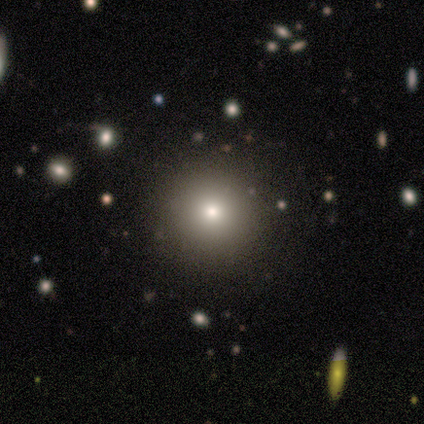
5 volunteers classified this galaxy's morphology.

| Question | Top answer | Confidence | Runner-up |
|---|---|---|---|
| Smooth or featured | smooth | 80% | star or artifact (20%) |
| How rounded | round | 100% | — |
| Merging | none | 100% | — |